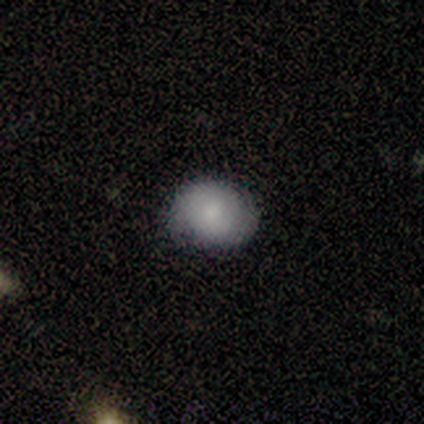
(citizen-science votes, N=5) This is clearly a smooth galaxy (80%). How rounded: likely round (75%). Merging: clearly none (80%).